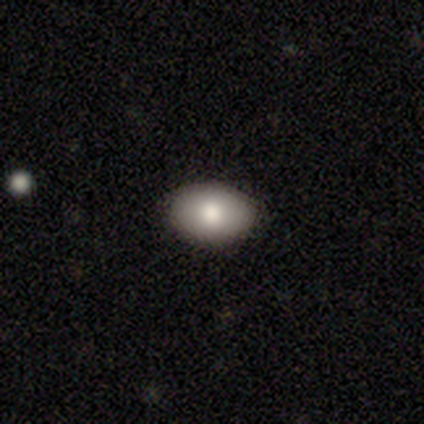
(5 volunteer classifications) Morphology: type=smooth (60%); roundness=in between (100%); merging=none (100%).